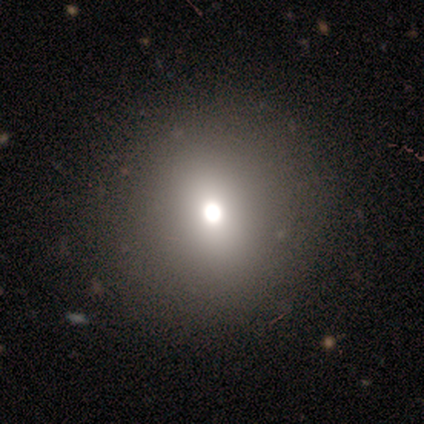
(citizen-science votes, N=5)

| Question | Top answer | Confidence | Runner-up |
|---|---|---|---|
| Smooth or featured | smooth | 80% | featured or disk (20%) |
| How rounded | round | 100% | — |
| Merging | none | 100% | — |